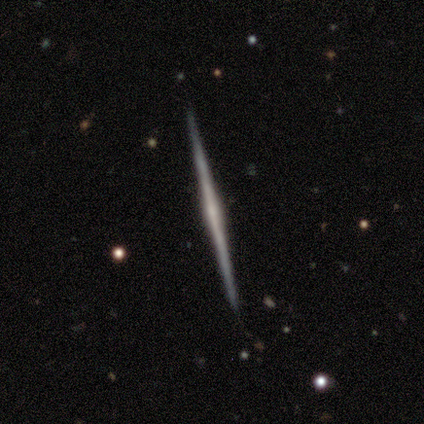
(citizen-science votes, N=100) Morphology: type=featured or disk (91%); edge-on=yes (99%); edge-on bulge=none (51%); merging=none (99%).